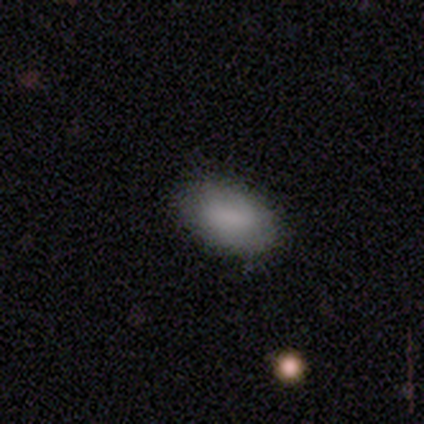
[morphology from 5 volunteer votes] Volunteers were most divided on "smooth or featured": smooth: 80%, featured or disk: 20%, star or artifact: 0%. More confident: how rounded — in between (100%); merging — none (100%).